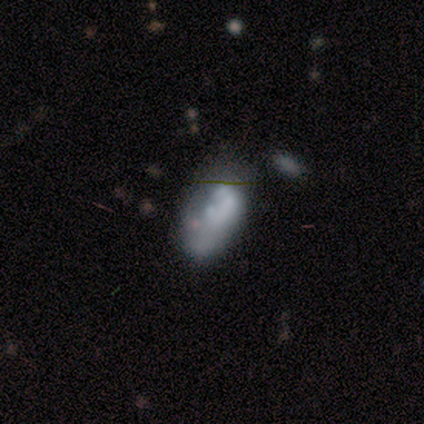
This appears to be a smooth galaxy with no disk features (50%, tied with featured or disk) that is round (50%, tied with in between). Merging: none (50%).